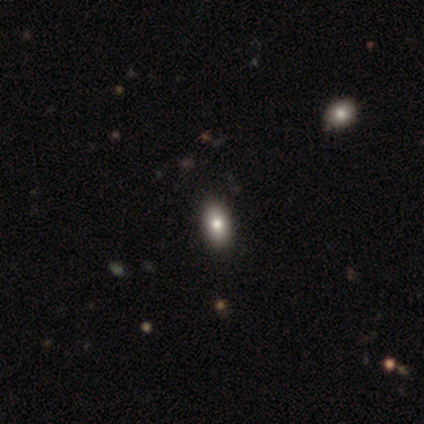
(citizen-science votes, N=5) Q: Smooth or featured?
A: smooth (80%); runner-up: featured or disk (20%)
Q: How rounded?
A: in between (75%); runner-up: round (25%)
Q: Merging?
A: none (80%); runner-up: merger (20%)